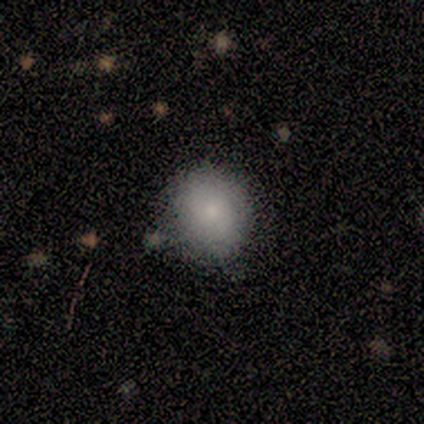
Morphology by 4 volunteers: Smooth or featured? 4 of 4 (100%) said smooth. How rounded? 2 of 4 (50%, tied with in between) said round. Merging? 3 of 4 (75%) said none.